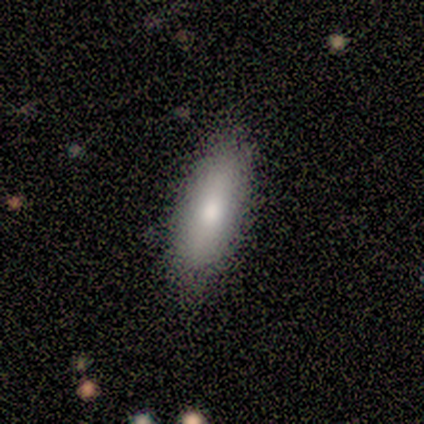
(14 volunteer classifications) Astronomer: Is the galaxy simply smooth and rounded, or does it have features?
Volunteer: smooth — 71%.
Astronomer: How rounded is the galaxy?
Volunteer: in between — 70%.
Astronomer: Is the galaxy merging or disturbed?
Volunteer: none — 93%.